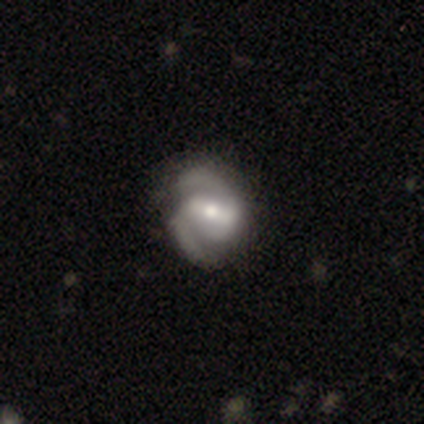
Smooth or featured? smooth (50%, tied with featured or disk)
How rounded? round (50%, tied with cigar-shaped)
Merging? none (50%)